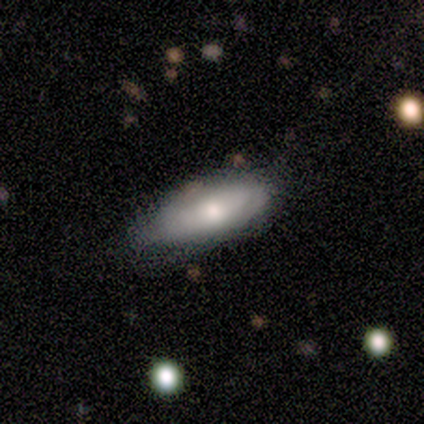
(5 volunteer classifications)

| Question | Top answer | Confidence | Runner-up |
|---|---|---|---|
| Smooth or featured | smooth | 80% | featured or disk (20%) |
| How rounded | in between | 75% | cigar-shaped (25%) |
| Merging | none | 60% | minor disturbance (40%) |